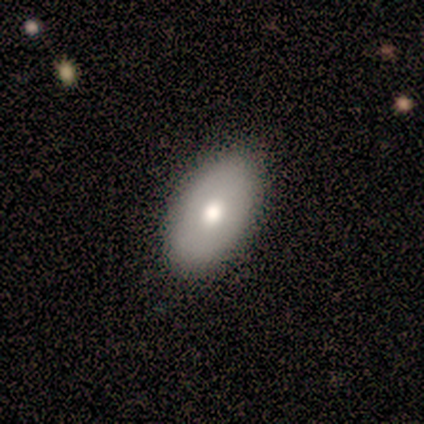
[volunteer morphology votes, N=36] Smooth or featured? 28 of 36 (78%) said smooth. How rounded? 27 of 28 (96%) said in between. Merging? 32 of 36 (89%) said none.